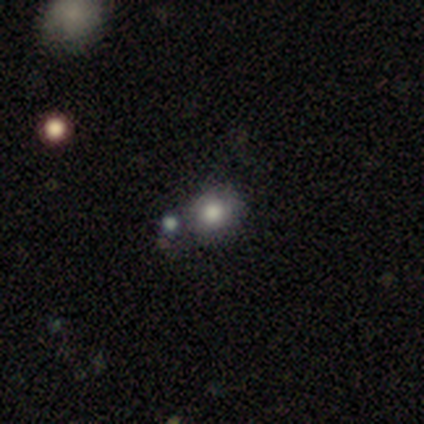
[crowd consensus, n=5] This is clearly a smooth galaxy (80%). How rounded: clearly round (100%). Merging: likely none (60%).